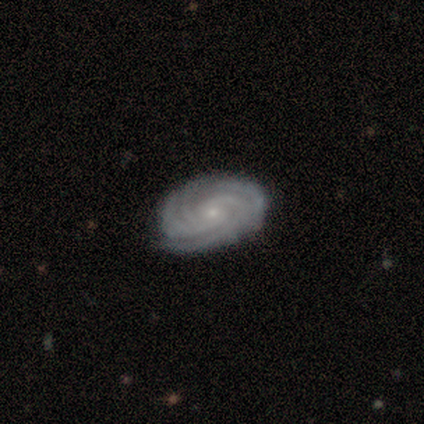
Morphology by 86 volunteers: type=featured or disk (93%); edge-on=no (98%); bar=no (68%); spiral arms=yes (99%); winding=tight (81%); arm count=4 (36%); bulge=small (86%); merging=none (92%).